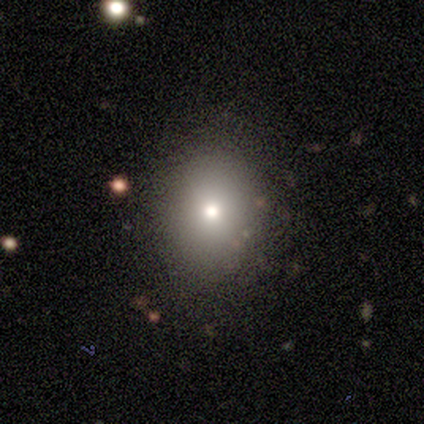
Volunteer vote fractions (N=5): smooth_or_featured: smooth (p=0.60) [alt: featured or disk p=0.20]
how_rounded: in between (p=0.67) [alt: round p=0.33]
merging: none (p=0.50) [tied with: minor disturbance p=0.50]